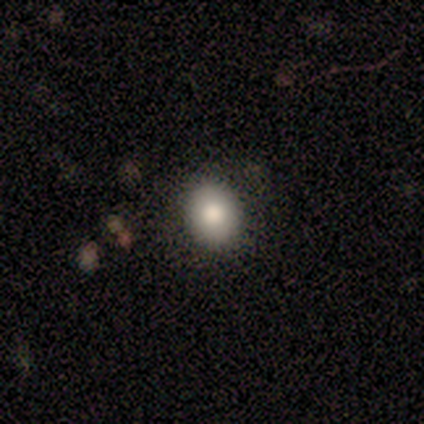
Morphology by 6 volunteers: This appears to be a smooth galaxy with no disk features (83%) that is round (80%). Merging: none (67%).